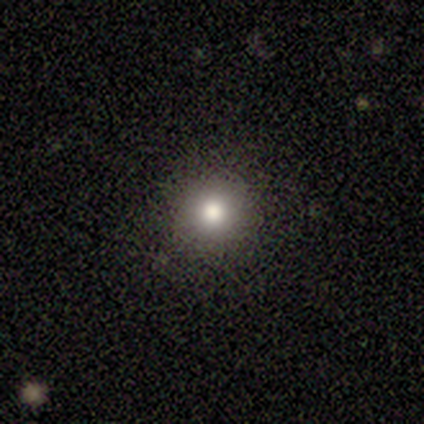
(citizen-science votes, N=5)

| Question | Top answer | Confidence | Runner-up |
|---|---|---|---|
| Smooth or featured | smooth | 80% | star or artifact (20%) |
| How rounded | round | 100% | — |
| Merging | none | 75% | major disturbance (25%) |